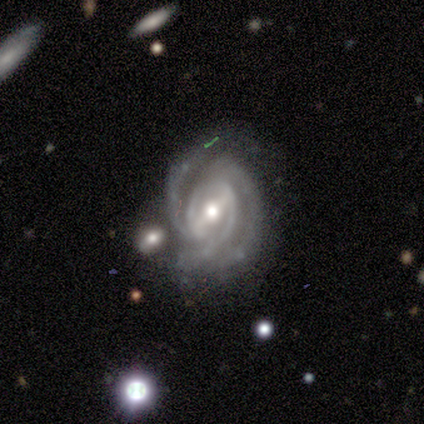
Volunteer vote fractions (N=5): This is clearly a featured or disk galaxy (80%). It is clearly not viewed edge-on (100%). Bar: likely strong (75%). Spiral arm pattern: clearly yes (100%). Spiral arm count: likely 3 (75%). Spiral winding: likely tight (75%). Central bulge: clearly moderate (100%). Merging: possibly none (50%).